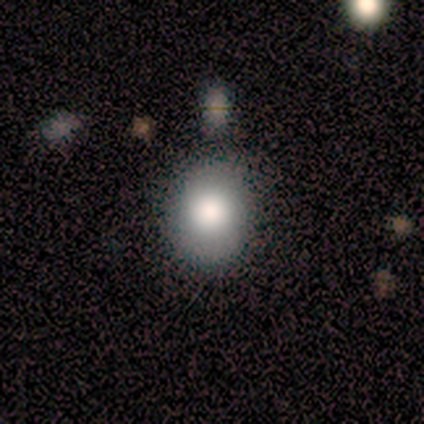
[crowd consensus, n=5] A smooth galaxy with no disk features (40%, tied with star or artifact) that is round (100%). Merging: none (100%).